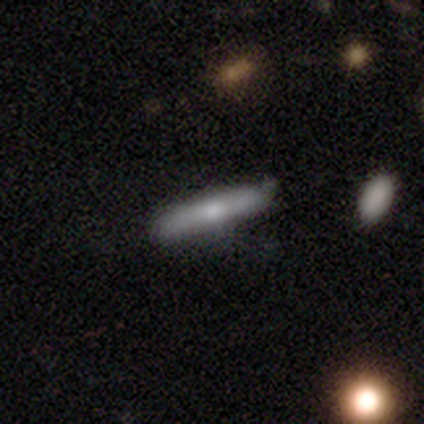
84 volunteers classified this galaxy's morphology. smooth-or-featured: smooth: 51% | featured or disk: 37% | star or artifact: 12%
  how-rounded: cigar-shaped: 84% | in between: 12% | round: 5%
  merging: none: 68% | minor disturbance: 24% | major disturbance: 4% | merger: 4%